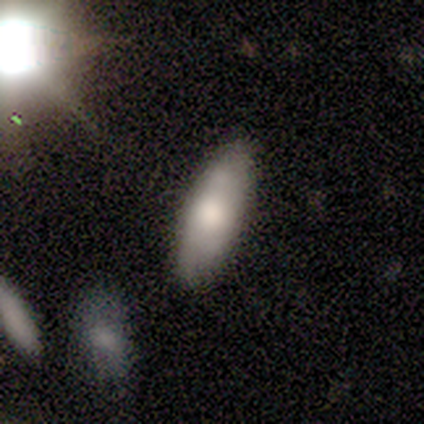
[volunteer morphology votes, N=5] A smooth galaxy with no disk features (100%) that is in between round and cigar-shaped (80%).

Vote fractions:
- Smooth or featured? smooth: 100% / featured or disk: 0% / star or artifact: 0%
- How rounded? in between: 80% / cigar-shaped: 20% / round: 0%
- Merging? none: 60% / minor disturbance: 40% / major disturbance: 0% / merger: 0%